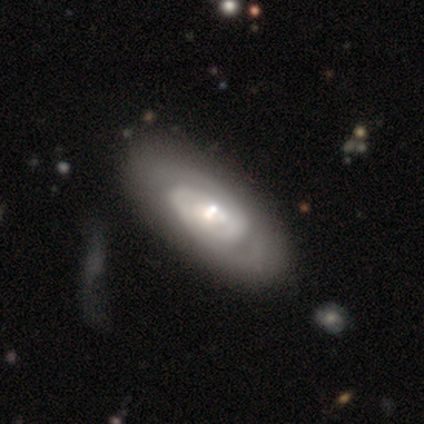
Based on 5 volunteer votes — Overall: featured or disk (80%). Edge-on disk: no (100%). Bar: weak (50%, tied with no). Spiral arms: yes (75%). Spiral arm count: 2 (67%; 1 33%). Spiral winding: medium (67%; tight 33%). Bulge size: small (50%; dominant 25%). Merging: none (50%; minor disturbance 25%).